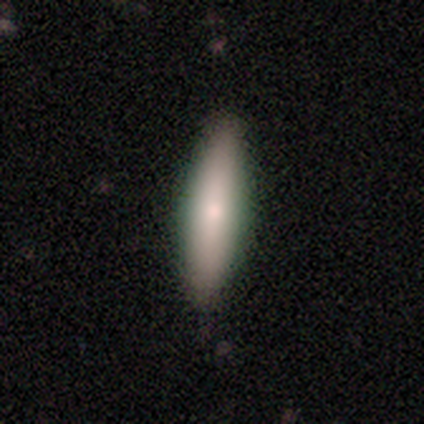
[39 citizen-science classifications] This appears to be a smooth galaxy with no disk features (69%) that is cigar-shaped (78%). Merging: none (78%).